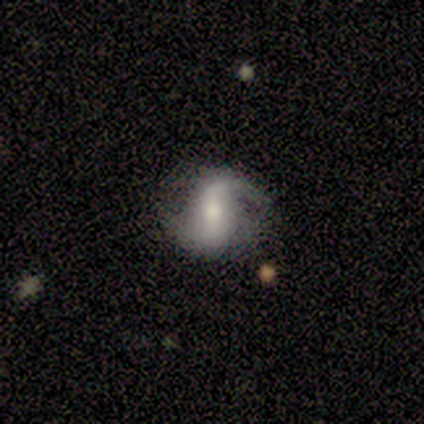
Smooth or featured? 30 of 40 (75%) said featured or disk. Edge-on disk? 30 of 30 (100%) said no. Bar? 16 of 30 (53%) said strong. Spiral arms? 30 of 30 (100%) said yes. Spiral winding? 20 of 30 (67%) said loose. Spiral arm count? 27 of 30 (90%) said 2. Bulge size? 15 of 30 (50%) said moderate. Merging? 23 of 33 (70%) said none.